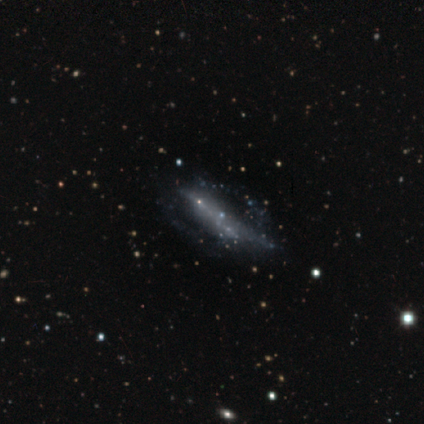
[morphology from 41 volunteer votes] Smooth or featured? featured or disk (54%)
Edge-on disk? no (91%)
Bar? no (85%)
Spiral arms? no (100%)
Bulge size? none (80%)
Merging? none (45%)